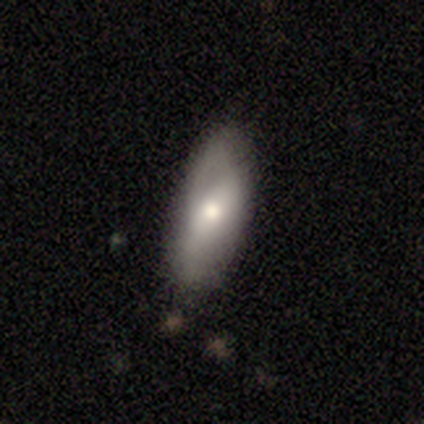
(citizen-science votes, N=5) Smooth or featured?
  - smooth: 80% *
  - featured or disk: 20%
  - star or artifact: 0%
How rounded?
  - in between: 100% *
  - round: 0%
  - cigar-shaped: 0%
Merging?
  - none: 60% *
  - minor disturbance: 40%
  - major disturbance: 0%
  - merger: 0%